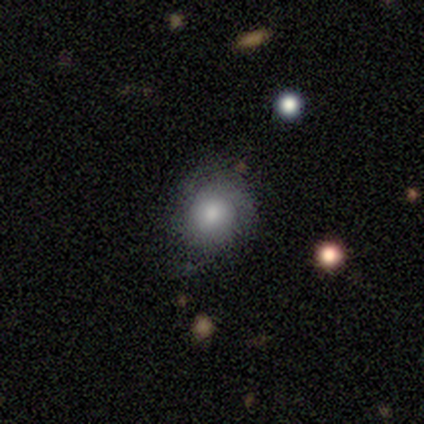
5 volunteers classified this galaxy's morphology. Q: Smooth or featured?
A: smooth (100%)
Q: How rounded?
A: round (80%); runner-up: in between (20%)
Q: Merging?
A: none (100%)